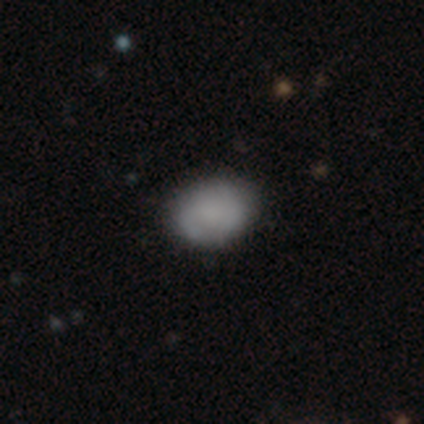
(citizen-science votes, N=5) smooth 80%, star or artifact 20%, featured or disk 0%. Down the decision tree: how rounded — in between (100%); merging — none (75%).